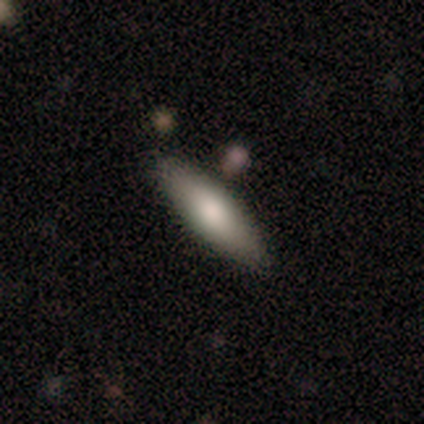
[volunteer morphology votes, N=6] smooth_or_featured: smooth (p=0.67) [alt: featured or disk p=0.17]
how_rounded: in between (p=0.50) [tied with: cigar-shaped p=0.50]
merging: none (p=1.00)